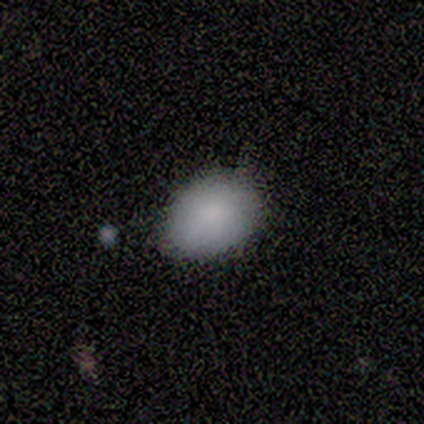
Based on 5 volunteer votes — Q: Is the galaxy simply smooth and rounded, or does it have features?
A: smooth — 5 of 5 (100%).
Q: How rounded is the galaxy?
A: in between — 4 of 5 (80%).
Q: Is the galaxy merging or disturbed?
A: none — 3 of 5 (60%).